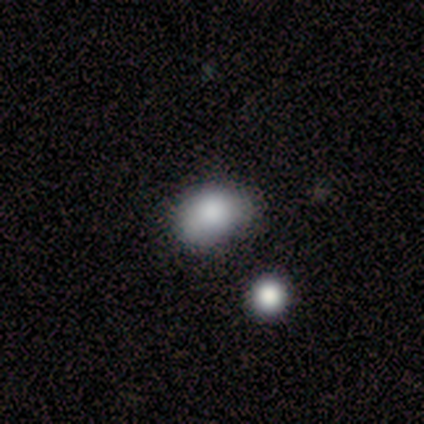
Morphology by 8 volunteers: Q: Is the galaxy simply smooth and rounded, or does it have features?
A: smooth — 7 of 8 (88%).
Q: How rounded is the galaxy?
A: in between — 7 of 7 (100%).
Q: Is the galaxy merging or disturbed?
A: none — 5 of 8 (62%).